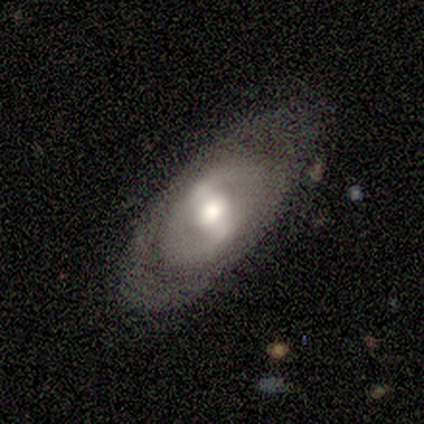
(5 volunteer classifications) This is likely a smooth galaxy (60%). How rounded: clearly in between (100%). Merging: likely minor disturbance (60%).